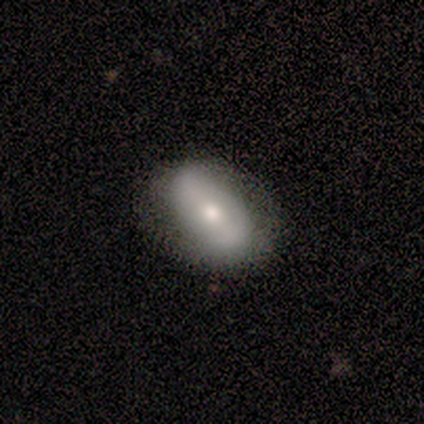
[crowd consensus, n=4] Smooth or featured: smooth — 75% (featured or disk — 25%)
How rounded: in between — 100%
Merging: none — 75% (minor disturbance — 25%)